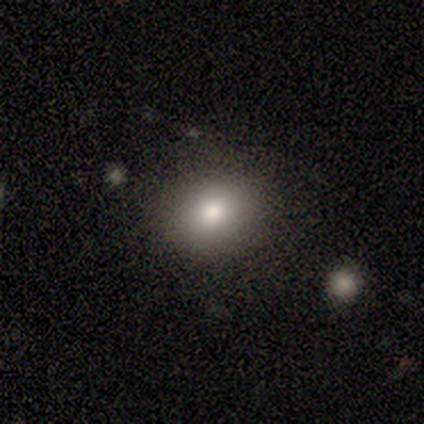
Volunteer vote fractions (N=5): Q: Smooth or featured?
A: smooth (40%); tied with: featured or disk (40%)
Q: How rounded?
A: round (50%); tied with: in between (50%)
Q: Merging?
A: none (100%)